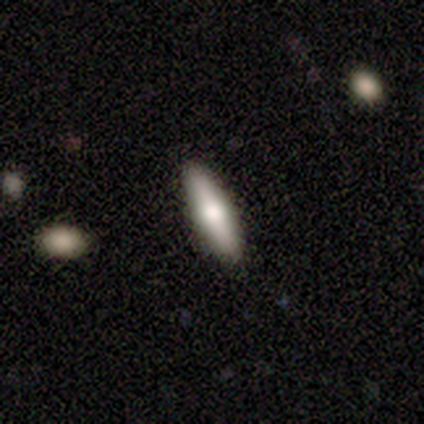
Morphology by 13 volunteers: smooth_or_featured: smooth (p=0.62) [alt: featured or disk p=0.23]
how_rounded: cigar-shaped (p=0.75) [alt: in between p=0.25]
merging: none (p=0.91) [alt: minor disturbance p=0.09]